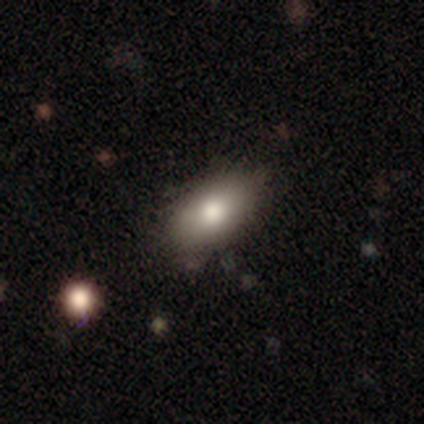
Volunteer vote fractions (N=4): Overall: smooth (100%). How rounded: in between (100%). Merging: none (75%).